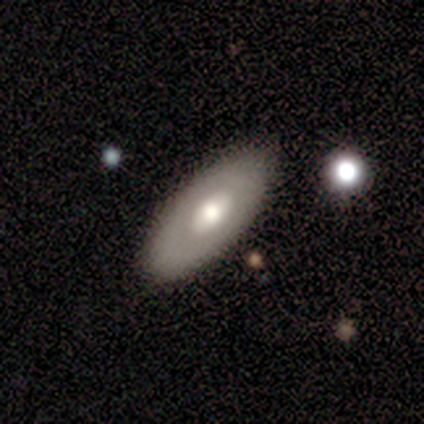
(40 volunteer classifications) Smooth or featured? 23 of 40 (57%) said featured or disk. Edge-on disk? 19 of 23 (83%) said no. Bar? 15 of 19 (79%) said no. Spiral arms? 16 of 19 (84%) said no. Bulge size? 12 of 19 (63%) said moderate. Merging? 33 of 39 (85%) said none.